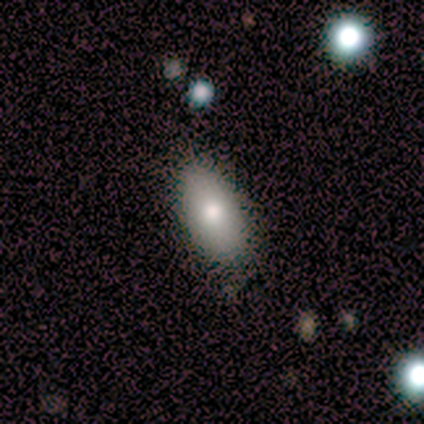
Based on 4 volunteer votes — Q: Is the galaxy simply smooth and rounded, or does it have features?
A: smooth — 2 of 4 (50%).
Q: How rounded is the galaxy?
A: in between — 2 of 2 (100%).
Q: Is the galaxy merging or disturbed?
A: none — 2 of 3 (67%).